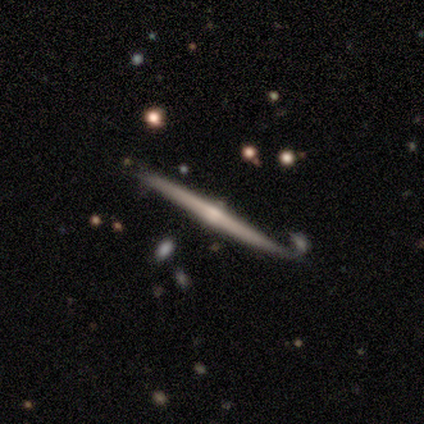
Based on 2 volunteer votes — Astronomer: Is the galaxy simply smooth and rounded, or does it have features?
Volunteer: smooth — 100%.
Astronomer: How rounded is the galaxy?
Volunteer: cigar-shaped — 100%.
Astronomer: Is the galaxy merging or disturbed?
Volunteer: none — 50%, tied with merger at 50%.